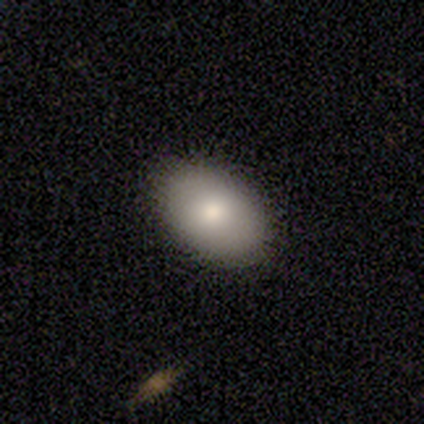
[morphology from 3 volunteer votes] A smooth galaxy with no disk features (67%) that is in between round and cigar-shaped (100%).

Vote fractions:
- Smooth or featured? smooth: 67% / featured or disk: 33% / star or artifact: 0%
- How rounded? in between: 100% / round: 0% / cigar-shaped: 0%
- Merging? none: 100% / minor disturbance: 0% / major disturbance: 0% / merger: 0%